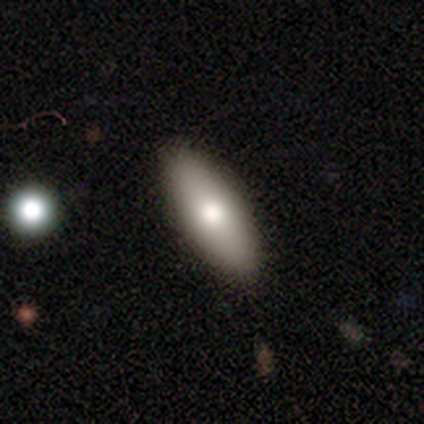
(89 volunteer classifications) A smooth galaxy with no disk features (73%) that is in between round and cigar-shaped (63%). Merging: none (90%).